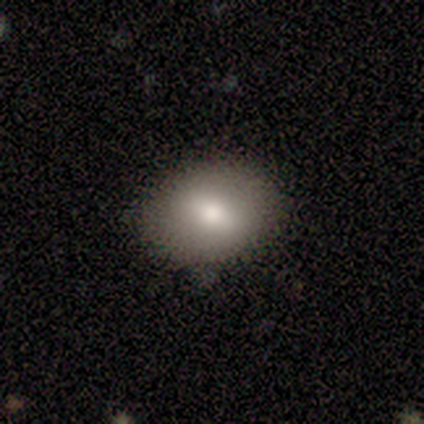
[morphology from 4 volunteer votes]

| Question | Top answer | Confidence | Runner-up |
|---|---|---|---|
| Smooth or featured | smooth | 100% | — |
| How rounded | in between | 100% | — |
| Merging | none | 100% | — |